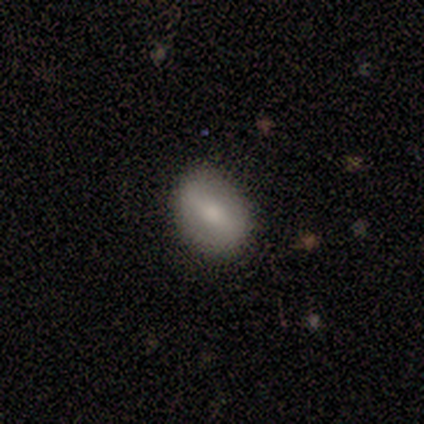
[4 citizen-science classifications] smooth-or-featured: smooth: 50% (tied) | featured or disk: 50% (tied) | star or artifact: 0%
  how-rounded: in between: 100% | round: 0% | cigar-shaped: 0%
  merging: none: 75% | minor disturbance: 25% | major disturbance: 0% | merger: 0%